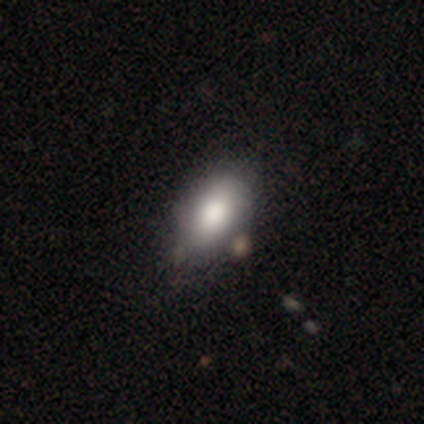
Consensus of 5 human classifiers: smooth 80%, featured or disk 20%, star or artifact 0%. Down the decision tree: how rounded — in between (100%); merging — none (100%).